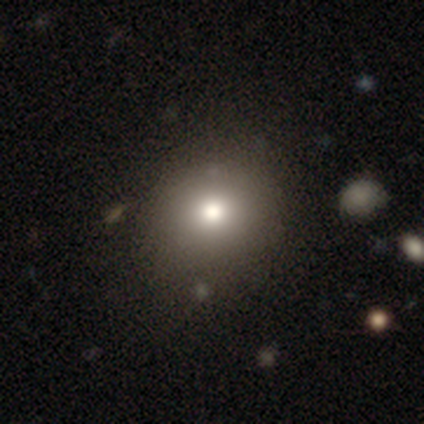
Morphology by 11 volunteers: A smooth galaxy with no disk features (91%) that is round (80%).

Vote fractions:
- Smooth or featured? smooth: 91% / featured or disk: 9% / star or artifact: 0%
- How rounded? round: 80% / in between: 20% / cigar-shaped: 0%
- Merging? none: 91% / minor disturbance: 9% / major disturbance: 0% / merger: 0%